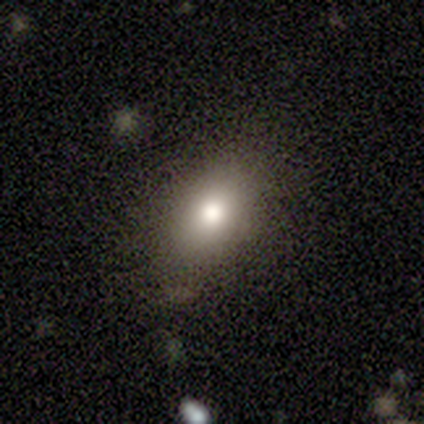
Q: Smooth or featured?
A: smooth (80%); runner-up: star or artifact (20%)
Q: How rounded?
A: in between (100%)
Q: Merging?
A: none (100%)